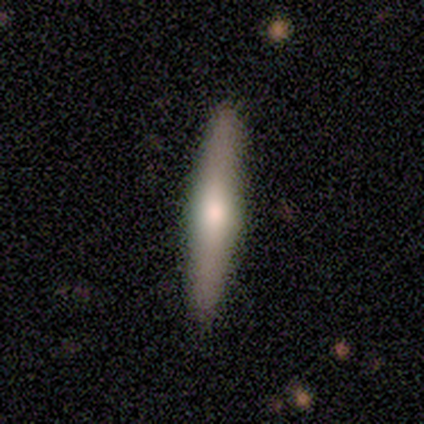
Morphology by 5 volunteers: Smooth or featured? 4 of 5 (80%) said featured or disk. Edge-on disk? 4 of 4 (100%) said yes. Edge-on bulge? 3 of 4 (75%) said rounded. Merging? 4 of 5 (80%) said none.